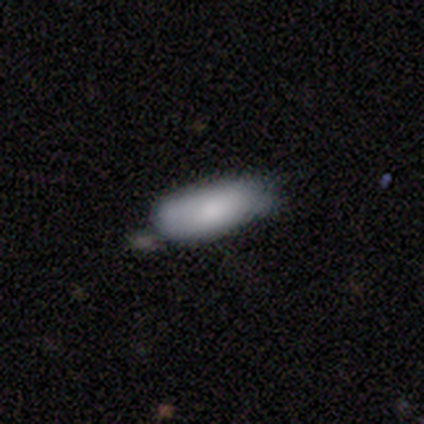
A smooth galaxy with no disk features (85%) that is in between round and cigar-shaped (85%).

Vote fractions:
- Smooth or featured? smooth: 85% / featured or disk: 10% / star or artifact: 5%
- How rounded? in between: 85% / cigar-shaped: 15% / round: 0%
- Merging? none: 46% / minor disturbance: 41% / merger: 14% / major disturbance: 0%